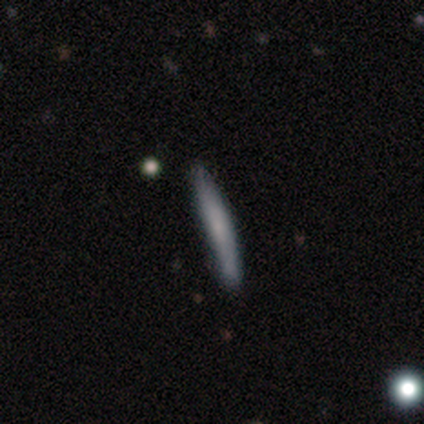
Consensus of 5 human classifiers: This is likely a smooth galaxy (60%). How rounded: clearly cigar-shaped (100%). Merging: clearly none (80%).